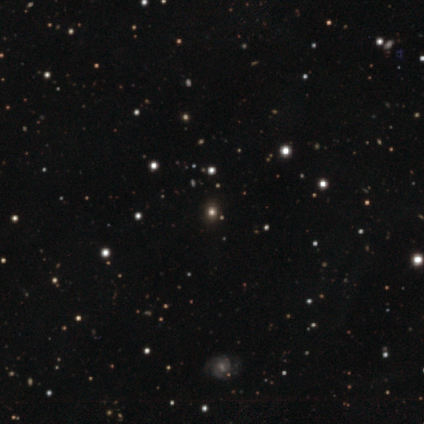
smooth-or-featured: star or artifact: 55% | smooth: 40% | featured or disk: 5%